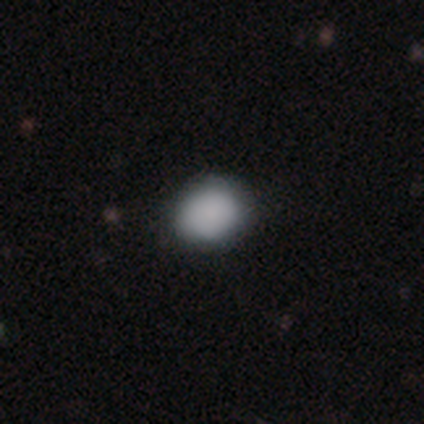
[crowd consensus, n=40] Smooth or featured? smooth (85%)
How rounded? round (74%)
Merging? none (78%)